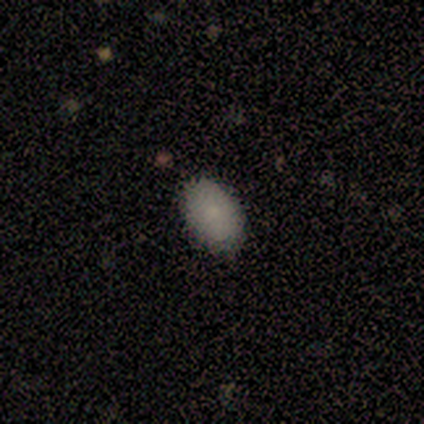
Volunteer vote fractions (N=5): Q: Smooth or featured?
A: smooth (100%)
Q: How rounded?
A: in between (80%); runner-up: round (20%)
Q: Merging?
A: none (80%); runner-up: minor disturbance (20%)